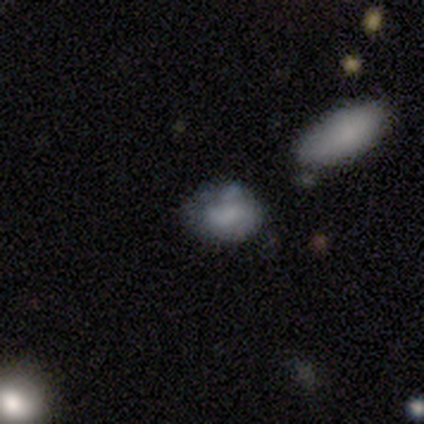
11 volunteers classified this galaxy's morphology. Smooth or featured: smooth — 64% (featured or disk — 27%)
How rounded: in between — 71% (round — 14%)
Merging: none — 60% (minor disturbance — 20%)